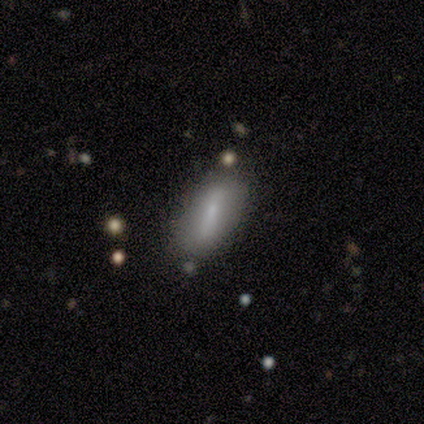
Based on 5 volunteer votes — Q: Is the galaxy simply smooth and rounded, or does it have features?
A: smooth — 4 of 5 (80%).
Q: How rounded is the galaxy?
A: in between — 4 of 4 (100%).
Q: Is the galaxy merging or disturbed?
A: none — 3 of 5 (60%).